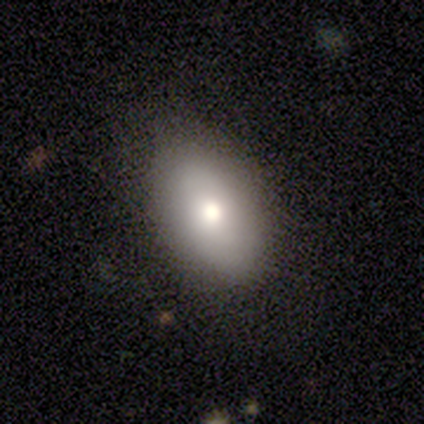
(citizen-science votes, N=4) Smooth or featured? smooth (100%)
How rounded? in between (100%)
Merging? none (100%)